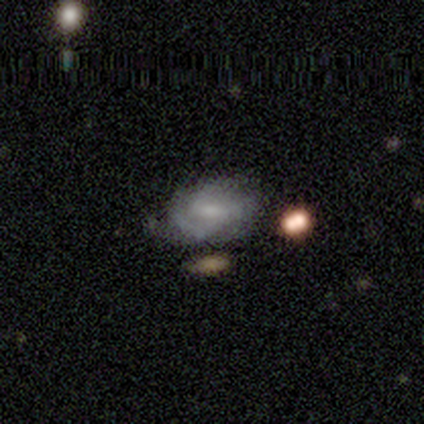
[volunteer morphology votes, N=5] This is clearly a featured or disk galaxy (100%). It is clearly not viewed edge-on (100%). Bar: likely no (60%). Spiral arm pattern: clearly yes (80%). Spiral arm count: possibly 3 (50%). Spiral winding: likely medium (75%). Central bulge: marginally moderate (40%, tied with small). Merging: clearly none (80%).